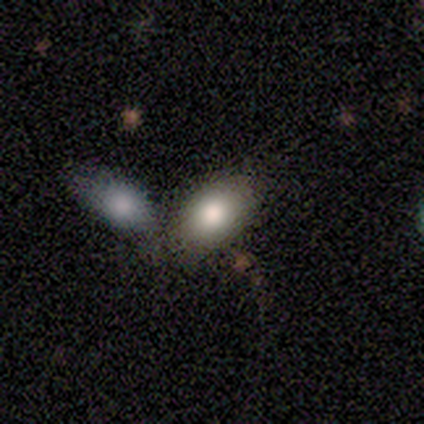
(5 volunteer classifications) Q: Smooth or featured?
A: smooth (80%); runner-up: featured or disk (20%)
Q: How rounded?
A: in between (100%)
Q: Merging?
A: merger (60%); runner-up: none (40%)